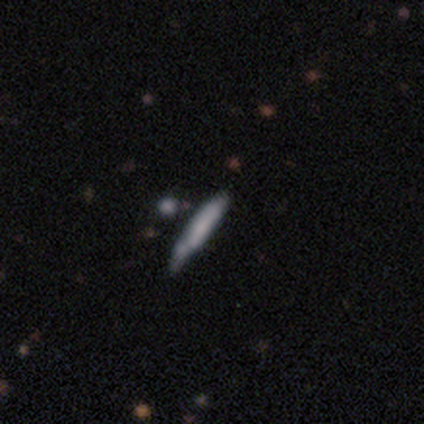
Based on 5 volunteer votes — Overall: featured or disk (80%). Edge-on disk: yes (75%). Edge-on bulge: none (67%; boxy 33%). Merging: none (80%).